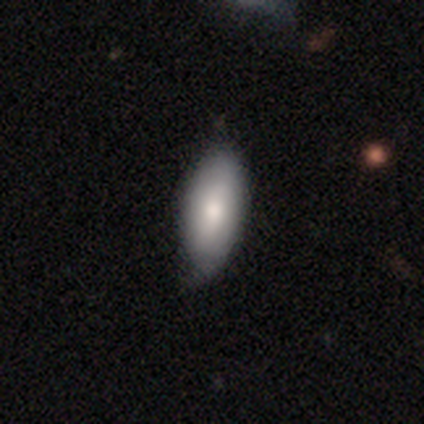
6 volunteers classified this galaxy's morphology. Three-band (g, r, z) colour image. It shows a featured or disk galaxy (67%) with no bar (50%), 2 (75%) tight (75%) spiral arms (100%) and a dominant central bulge (50%, tied with moderate). Merging: none (67%).